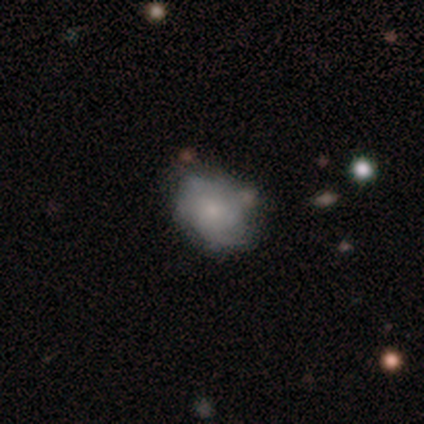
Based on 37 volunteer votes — smooth 62%, featured or disk 35%, star or artifact 3%. Down the decision tree: how rounded — in between (74%); merging — none (50%).